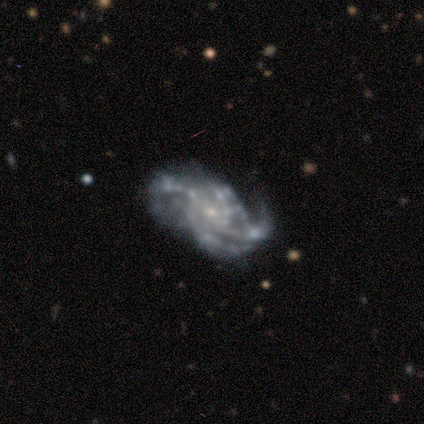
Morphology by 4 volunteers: Q: Smooth or featured?
A: featured or disk (75%); runner-up: star or artifact (25%)
Q: Edge-on disk?
A: no (100%)
Q: Bar?
A: no (100%)
Q: Spiral arms?
A: yes (100%)
Q: Spiral winding?
A: tight (67%); runner-up: medium (33%)
Q: Spiral arm count?
A: 4 (67%); runner-up: can't tell (33%)
Q: Bulge size?
A: small (67%); runner-up: none (33%)
Q: Merging?
A: none (67%); runner-up: major disturbance (33%)